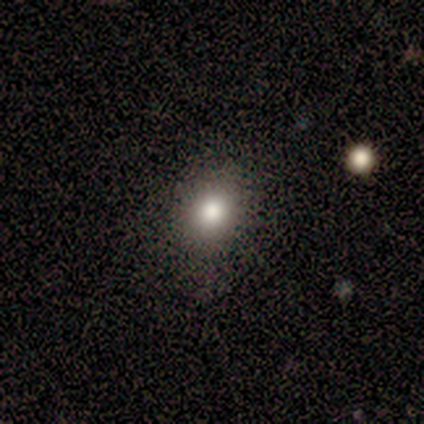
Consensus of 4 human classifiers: A smooth galaxy with no disk features (75%) that is round (67%).

Vote fractions:
- Smooth or featured? smooth: 75% / featured or disk: 25% / star or artifact: 0%
- How rounded? round: 67% / in between: 33% / cigar-shaped: 0%
- Merging? none: 100% / minor disturbance: 0% / major disturbance: 0% / merger: 0%